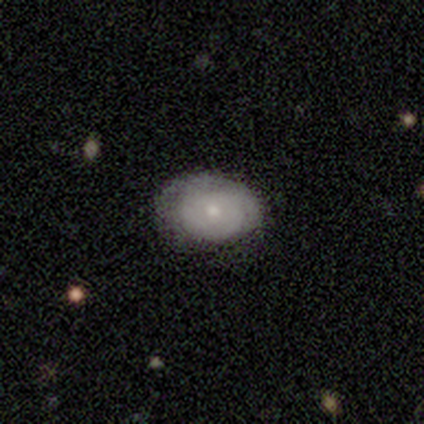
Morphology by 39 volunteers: Q: Smooth or featured?
A: smooth (69%); runner-up: featured or disk (26%)
Q: How rounded?
A: in between (70%); runner-up: round (30%)
Q: Merging?
A: none (70%); runner-up: minor disturbance (16%)